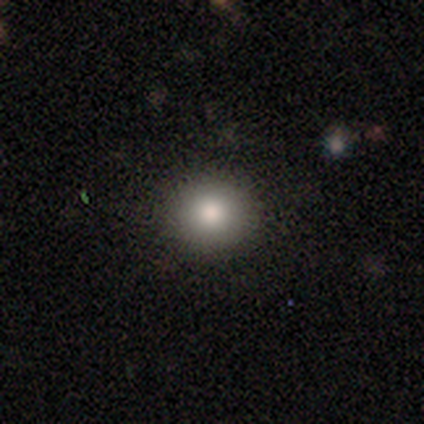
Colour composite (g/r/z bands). It shows a smooth galaxy with no disk features (87%) that is round (91%). Merging: none (85%).